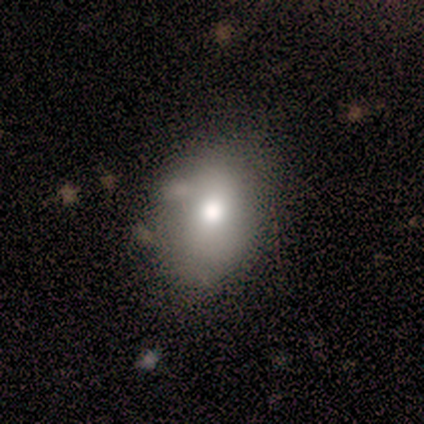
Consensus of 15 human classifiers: Morphology: type=smooth (73%); roundness=in between (91%); merging=none (60%).